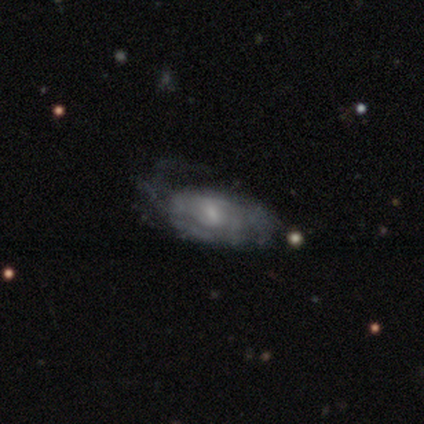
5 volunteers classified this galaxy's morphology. smooth_or_featured: featured or disk (p=0.60) [alt: smooth p=0.40]
disk_edge_on: no (p=1.00)
bar: weak (p=1.00)
has_spiral_arms: yes (p=1.00)
spiral_winding: medium (p=0.67) [alt: tight p=0.33]
spiral_arm_count: can't tell (p=0.67) [alt: 2 p=0.33]
bulge_size: small (p=0.67) [alt: moderate p=0.33]
merging: major disturbance (p=0.60) [alt: minor disturbance p=0.40]